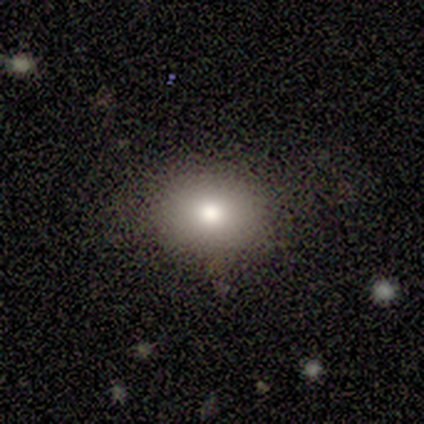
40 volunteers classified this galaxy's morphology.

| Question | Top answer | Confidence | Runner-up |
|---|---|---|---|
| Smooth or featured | smooth | 68% | star or artifact (18%) |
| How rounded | round | 70% | in between (30%) |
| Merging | none | 85% | minor disturbance (9%) |